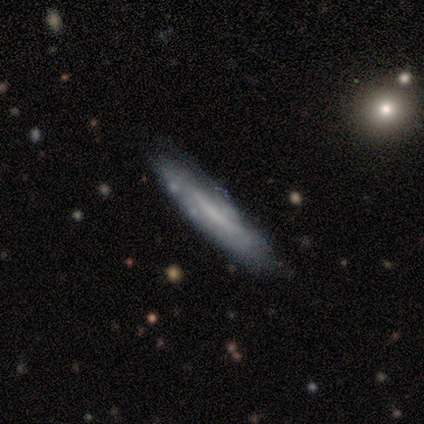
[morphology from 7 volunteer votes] smooth_or_featured: featured or disk (p=0.71) [alt: smooth p=0.29]
disk_edge_on: yes (p=0.60) [alt: no p=0.40]
edge_on_bulge: rounded (p=0.67) [alt: none p=0.33]
merging: none (p=0.86) [alt: merger p=0.14]